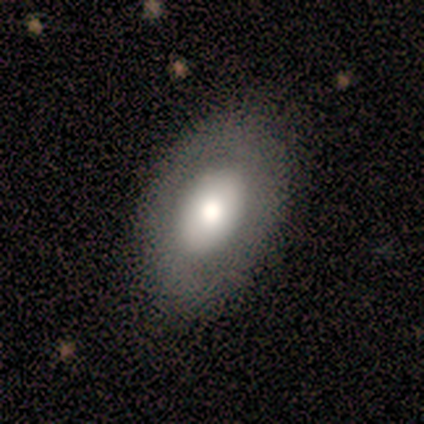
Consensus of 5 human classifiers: smooth 60%, featured or disk 40%, star or artifact 0%. Down the decision tree: how rounded — in between (100%); merging — none (60%).